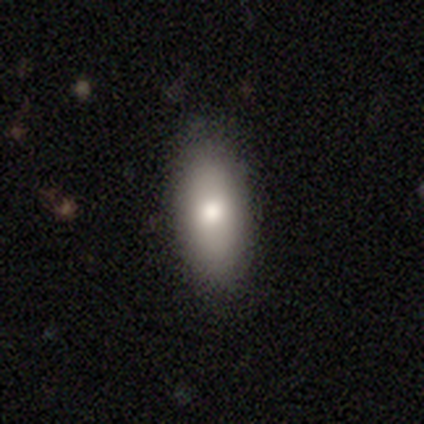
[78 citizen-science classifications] Overall: smooth (77%). How rounded: in between (92%). Merging: none (52%).